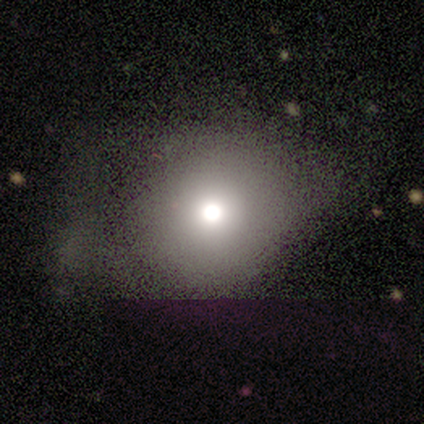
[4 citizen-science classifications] Smooth or featured? 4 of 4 (100%) said smooth. How rounded? 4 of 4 (100%) said round. Merging? 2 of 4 (50%) said major disturbance.